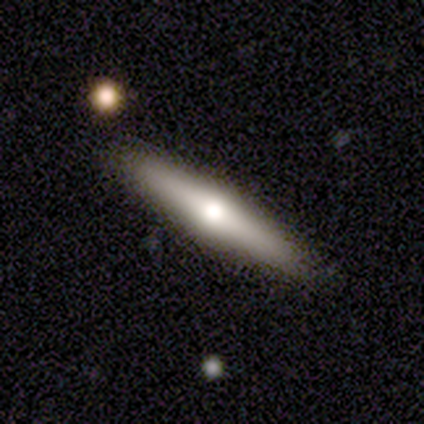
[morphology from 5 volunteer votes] smooth 80%, featured or disk 20%, star or artifact 0%. Down the decision tree: how rounded — cigar-shaped (75%); merging — none (80%).